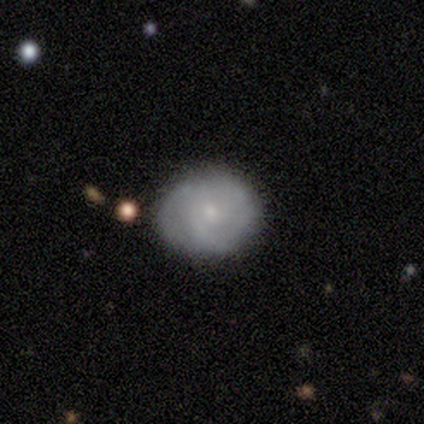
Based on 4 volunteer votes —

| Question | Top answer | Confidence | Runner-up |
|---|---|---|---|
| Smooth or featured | featured or disk | 75% | smooth (25%) |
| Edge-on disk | no | 100% | — |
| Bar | weak | 67% | no (33%) |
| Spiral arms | yes | 100% | — |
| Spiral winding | tight | 100% | — |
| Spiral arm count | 2 | 67% | 3 (33%) |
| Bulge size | small | 67% | moderate (33%) |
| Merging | none | 50% | tied: minor disturbance (50%) |